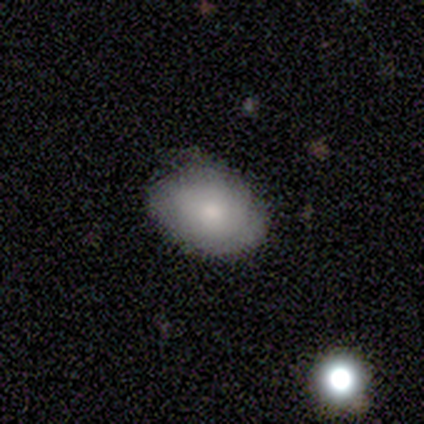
Q: Smooth or featured?
A: smooth (60%); runner-up: featured or disk (40%)
Q: How rounded?
A: in between (67%); runner-up: round (33%)
Q: Merging?
A: none (80%); runner-up: minor disturbance (20%)